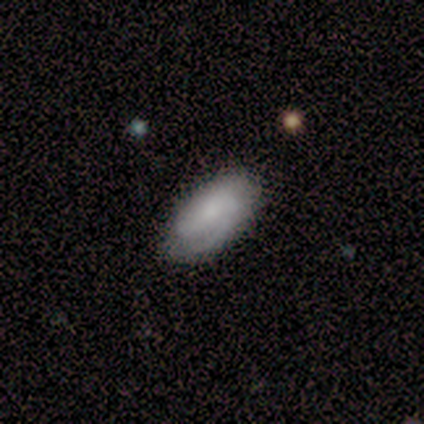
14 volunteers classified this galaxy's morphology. A smooth galaxy with no disk features (64%) that is in between round and cigar-shaped (100%).

Vote fractions:
- Smooth or featured? smooth: 64% / featured or disk: 36% / star or artifact: 0%
- How rounded? in between: 100% / round: 0% / cigar-shaped: 0%
- Merging? none: 86% / minor disturbance: 14% / major disturbance: 0% / merger: 0%